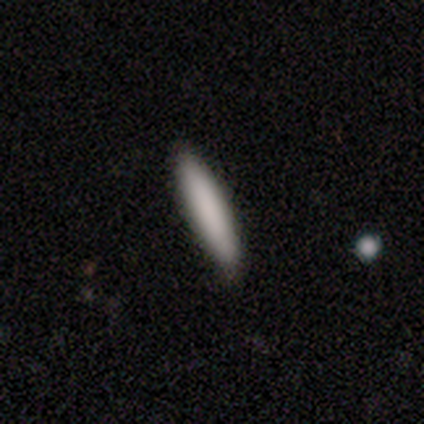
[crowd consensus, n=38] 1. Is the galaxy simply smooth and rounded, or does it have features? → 89% smooth, 5% featured or disk, 5% star or artifact.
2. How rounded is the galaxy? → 85% cigar-shaped, 12% in between, 3% round.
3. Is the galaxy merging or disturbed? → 92% none, 6% minor disturbance, 3% major disturbance, 0% merger.